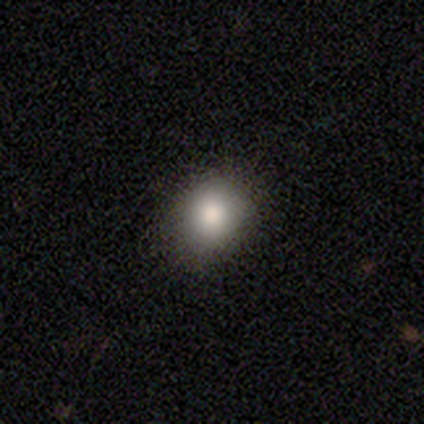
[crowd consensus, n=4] This is likely a smooth galaxy (75%). How rounded: likely in between (67%). Merging: likely none (75%).